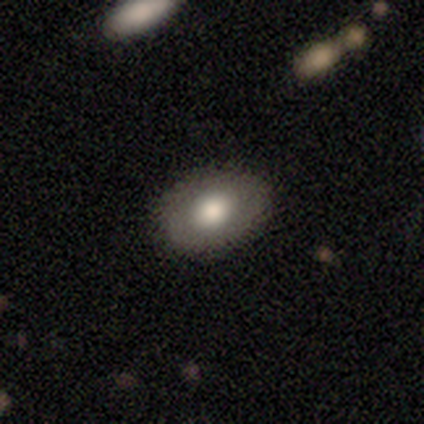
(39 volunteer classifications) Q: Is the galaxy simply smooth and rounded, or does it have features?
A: smooth — 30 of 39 (77%).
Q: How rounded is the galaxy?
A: in between — 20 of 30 (67%).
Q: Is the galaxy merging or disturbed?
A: none — 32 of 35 (91%).